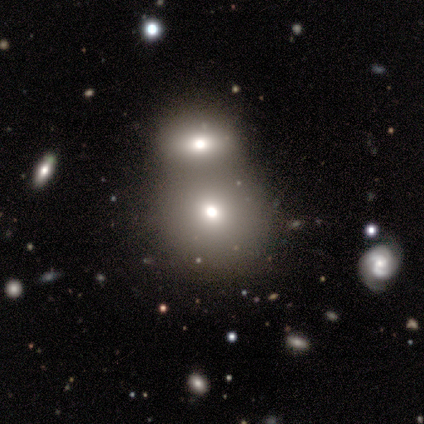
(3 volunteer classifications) A smooth galaxy with no disk features (67%) that is round (50%, tied with in between). Merging: merger (100%).